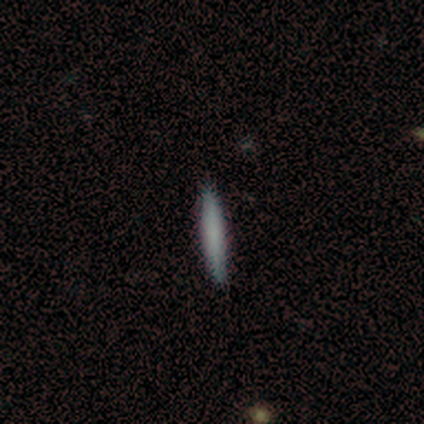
smooth 100%, featured or disk 0%, star or artifact 0%. Down the decision tree: how rounded — cigar-shaped (100%); merging — none (100%).